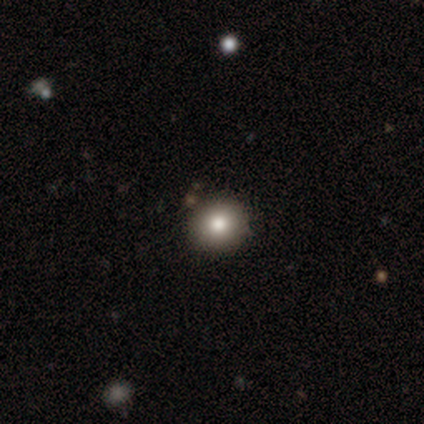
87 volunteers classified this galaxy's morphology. This is likely a smooth galaxy (74%). How rounded: clearly round (95%). Merging: clearly none (93%).